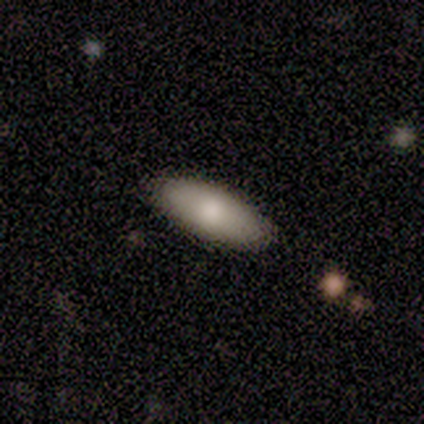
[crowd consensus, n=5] A smooth galaxy with no disk features (100%) that is in between round and cigar-shaped (80%). Merging: none (100%).